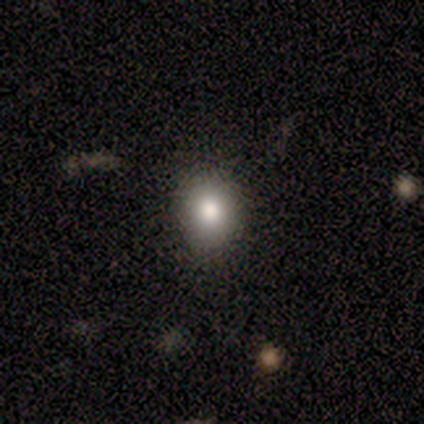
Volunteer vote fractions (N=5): Smooth or featured?
  - smooth: 100% *
  - featured or disk: 0%
  - star or artifact: 0%
How rounded?
  - in between: 60% *
  - round: 40%
  - cigar-shaped: 0%
Merging?
  - none: 60% *
  - minor disturbance: 40%
  - major disturbance: 0%
  - merger: 0%